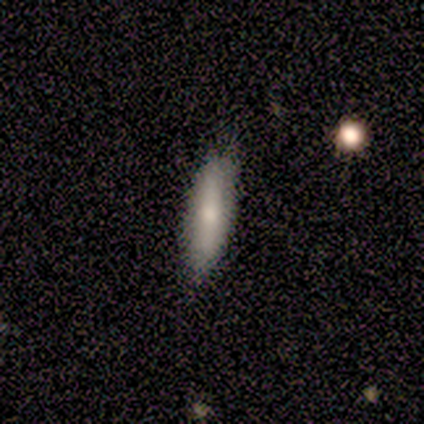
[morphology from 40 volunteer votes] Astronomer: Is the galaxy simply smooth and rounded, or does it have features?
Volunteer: smooth — 78%.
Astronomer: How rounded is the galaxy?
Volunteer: in between — 52% (runner-up: cigar-shaped, 48%).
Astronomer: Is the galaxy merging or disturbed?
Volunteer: none — 82%.